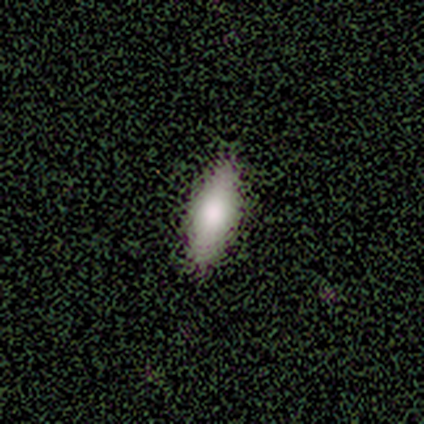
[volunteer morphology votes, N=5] A smooth galaxy with no disk features (80%) that is in between round and cigar-shaped (75%). Merging: none (100%).